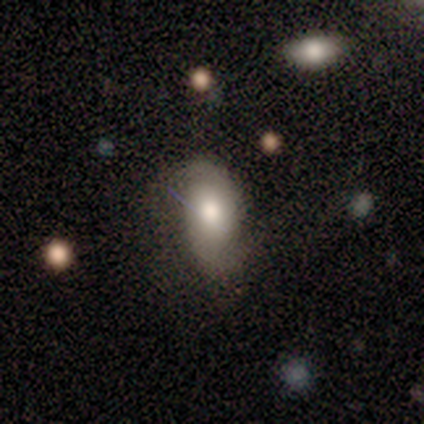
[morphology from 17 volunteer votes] Smooth or featured? smooth (47%, tied with featured or disk)
How rounded? in between (100%)
Merging? none (44%)